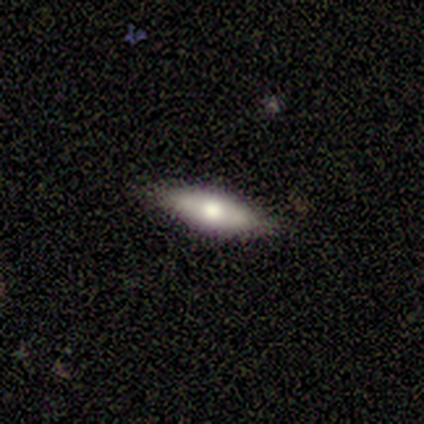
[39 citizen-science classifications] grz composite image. It shows a smooth galaxy with no disk features (69%) that is in between round and cigar-shaped (59%). Merging: none (95%).